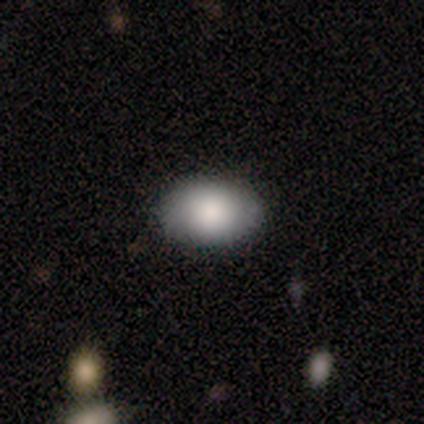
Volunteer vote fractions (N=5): This is clearly a smooth galaxy (80%). How rounded: clearly in between (100%). Merging: clearly none (80%).